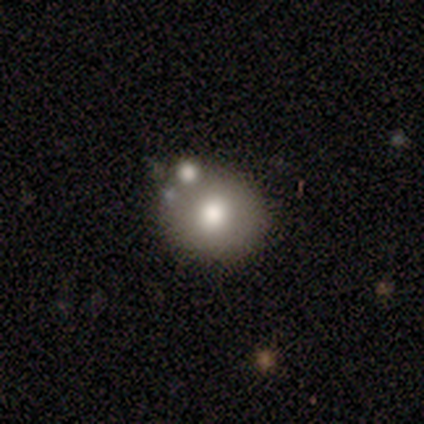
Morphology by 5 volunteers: Overall: smooth (80%). How rounded: round (75%). Merging: none (100%).